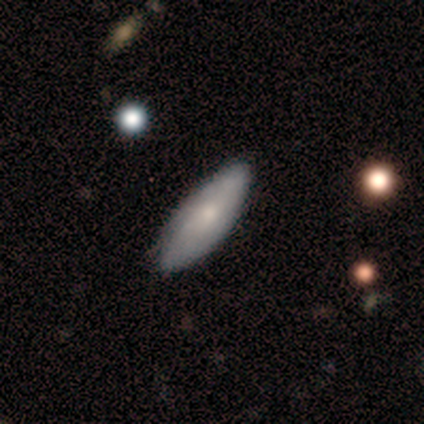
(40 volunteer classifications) Volunteers were most divided on "smooth or featured": smooth: 65%, featured or disk: 30%, star or artifact: 5%. More confident: merging — none (82%); how rounded — in between (73%).